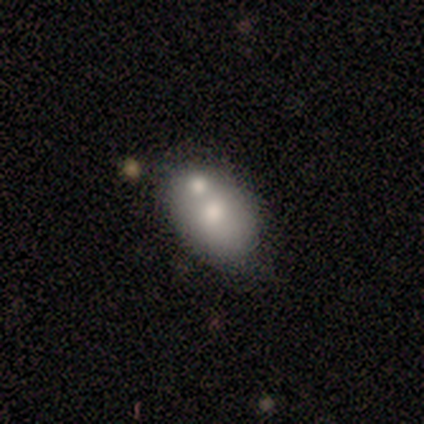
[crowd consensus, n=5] Q: Smooth or featured?
A: smooth (80%); runner-up: star or artifact (20%)
Q: How rounded?
A: in between (75%); runner-up: round (25%)
Q: Merging?
A: none (100%)